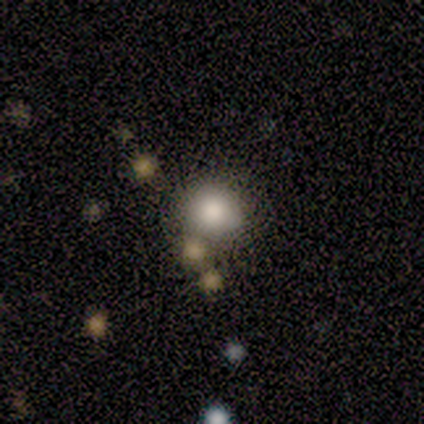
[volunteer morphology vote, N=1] This is clearly a smooth galaxy (100%). How rounded: clearly round (100%). Merging: clearly none (100%).